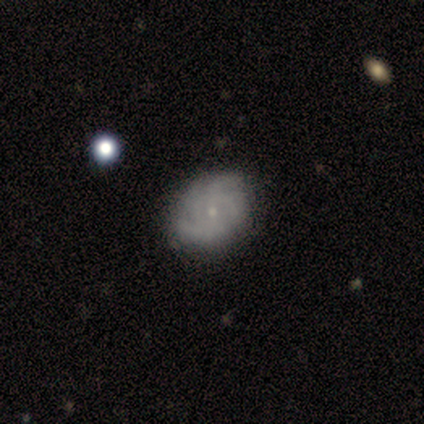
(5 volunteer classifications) A featured or disk galaxy (80%) with a weak bar (50%, tied with no), tight (50%, tied with medium) spiral arms (100%) and a small central bulge (100%). Merging: none (80%).